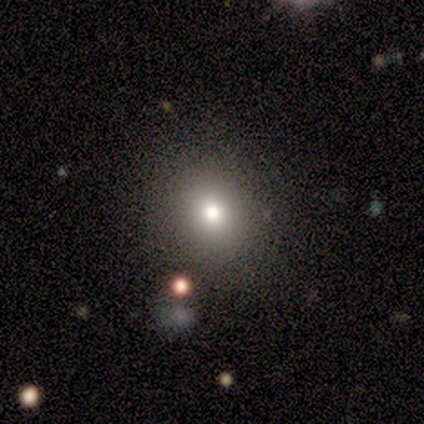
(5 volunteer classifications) smooth-or-featured: smooth: 80% | star or artifact: 20% | featured or disk: 0%
  how-rounded: round: 100% | in between: 0% | cigar-shaped: 0%
  merging: none: 100% | minor disturbance: 0% | major disturbance: 0% | merger: 0%